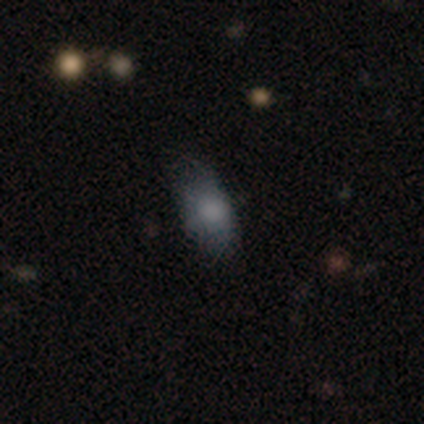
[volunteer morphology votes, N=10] smooth-or-featured: smooth: 90% | featured or disk: 10% | star or artifact: 0%
  how-rounded: in between: 100% | round: 0% | cigar-shaped: 0%
  merging: none: 70% | minor disturbance: 20% | major disturbance: 10% | merger: 0%